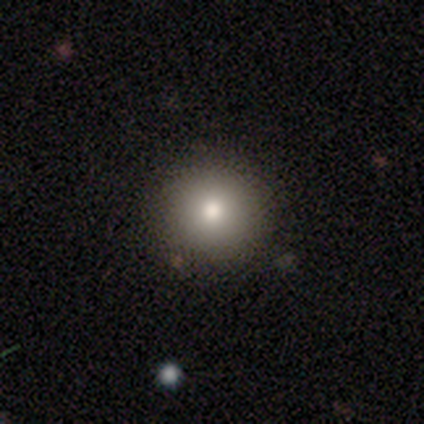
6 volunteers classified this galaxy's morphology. smooth_or_featured: smooth (p=0.83) [alt: star or artifact p=0.17]
how_rounded: round (p=1.00)
merging: none (p=1.00)